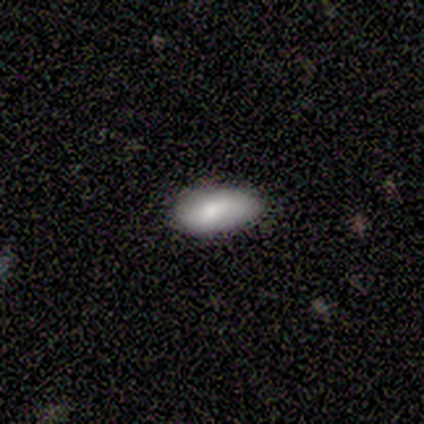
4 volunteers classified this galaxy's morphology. smooth_or_featured: smooth (p=0.75) [alt: featured or disk p=0.25]
how_rounded: in between (p=1.00)
merging: none (p=1.00)